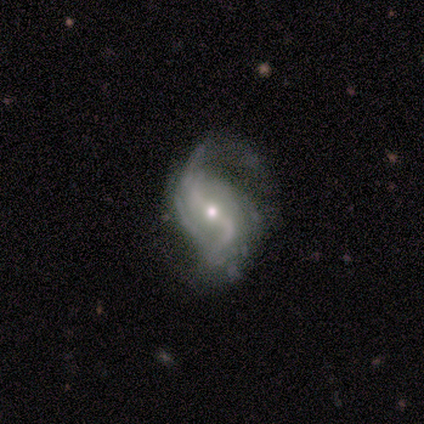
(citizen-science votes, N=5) Morphology: type=featured or disk (60%); edge-on=no (100%); bar=weak (100%); spiral arms=yes (100%); winding=loose (67%); arm count=2 (67%); bulge=small (100%); merging=minor disturbance (60%).